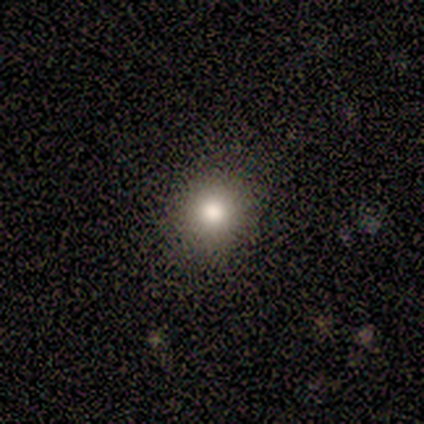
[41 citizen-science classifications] Smooth or featured? 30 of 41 (73%) said smooth. How rounded? 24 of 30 (80%) said round. Merging? 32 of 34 (94%) said none.